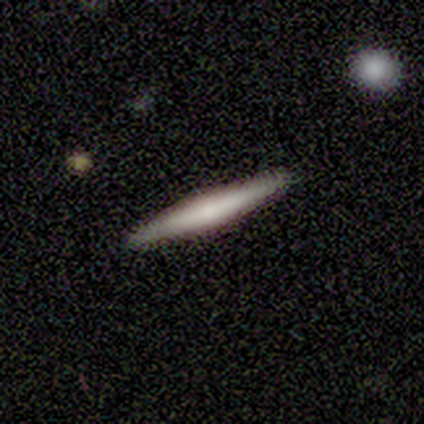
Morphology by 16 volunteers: Overall: smooth (50%, tied with featured or disk). How rounded: cigar-shaped (100%). Merging: none (94%).